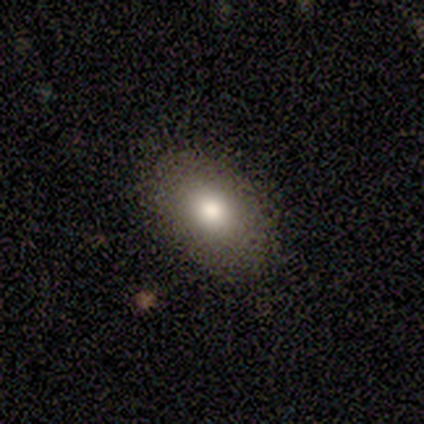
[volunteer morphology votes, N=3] A smooth galaxy with no disk features (100%) that is in between round and cigar-shaped (100%).

Vote fractions:
- Smooth or featured? smooth: 100% / featured or disk: 0% / star or artifact: 0%
- How rounded? in between: 100% / round: 0% / cigar-shaped: 0%
- Merging? none: 100% / minor disturbance: 0% / major disturbance: 0% / merger: 0%